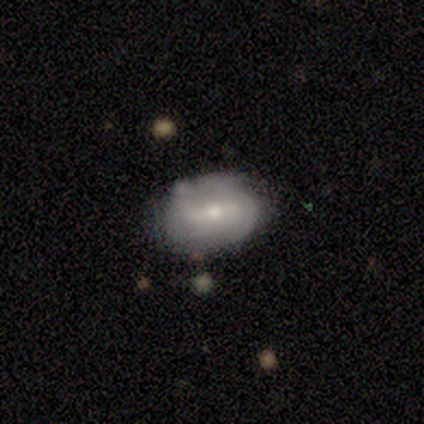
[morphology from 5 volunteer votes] This appears to be a featured or disk galaxy (80%) with a weak bar (75%), 2 (75%) tight (50%, tied with loose) spiral arms (100%) and a moderate central bulge (50%). Merging: none (60%).